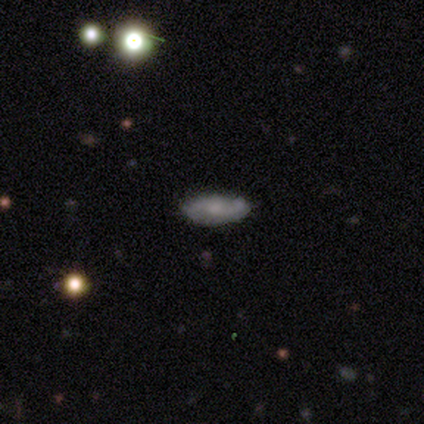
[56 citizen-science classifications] Morphology: type=featured or disk (52%); edge-on=no (93%); bar=no (81%); spiral arms=yes (70%); winding=loose (42%); arm count=2 (84%); bulge=moderate (41%); merging=none (78%).